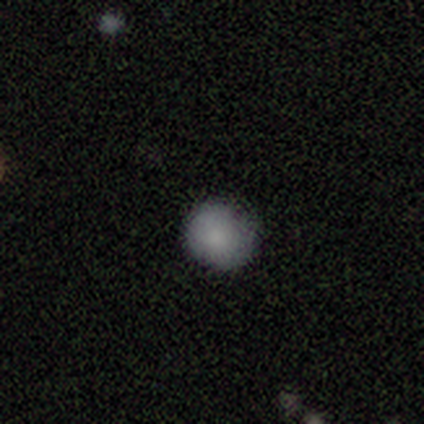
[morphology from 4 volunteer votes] Smooth or featured: smooth — 100%
How rounded: round — 100%
Merging: none — 75% (minor disturbance — 25%)